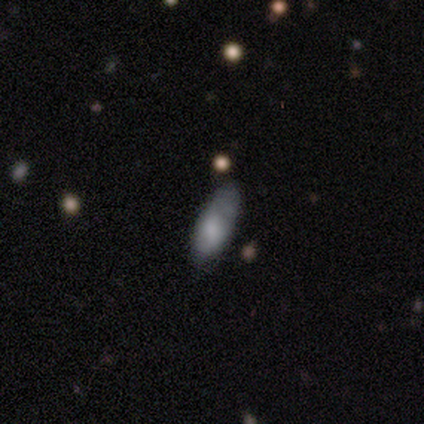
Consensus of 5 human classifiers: Volunteers were most divided on "merging": none: 80%, minor disturbance: 20%, major disturbance: 0%, merger: 0%. More confident: smooth or featured — smooth (100%); how rounded — in between (100%).